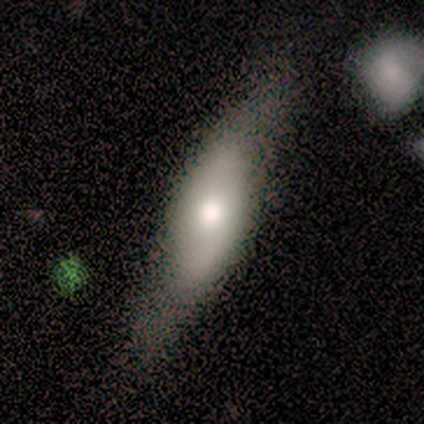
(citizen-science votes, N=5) smooth_or_featured: featured or disk (p=0.60) [alt: smooth p=0.40]
disk_edge_on: no (p=0.67) [alt: yes p=0.33]
bar: no (p=1.00)
has_spiral_arms: yes (p=1.00)
spiral_winding: loose (p=1.00)
spiral_arm_count: 2 (p=1.00)
bulge_size: moderate (p=1.00)
merging: none (p=1.00)